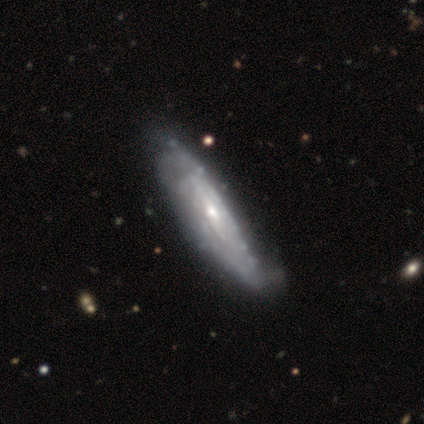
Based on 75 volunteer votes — featured or disk 83%, smooth 13%, star or artifact 4%. Down the decision tree: edge-on disk — no (69%); bar — no (67%); spiral arms — yes (74%); spiral arm count — can't tell (78%); spiral winding — tight (75%); bulge size — small (53%); merging — none (69%).